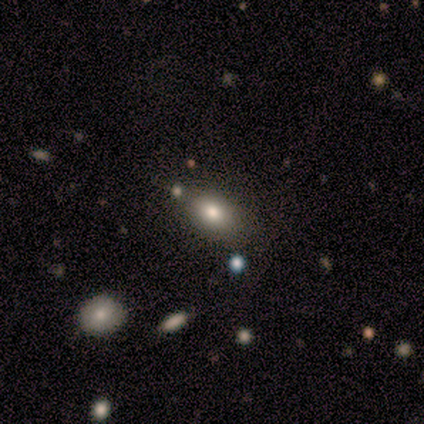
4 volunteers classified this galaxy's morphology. smooth-or-featured: smooth: 75% | featured or disk: 25% | star or artifact: 0%
  how-rounded: in between: 100% | round: 0% | cigar-shaped: 0%
  merging: none: 75% | merger: 25% | minor disturbance: 0% | major disturbance: 0%